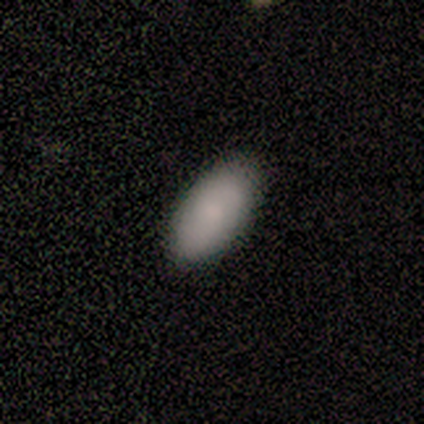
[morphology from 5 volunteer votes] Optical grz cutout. It shows a smooth galaxy with no disk features (80%) that is in between round and cigar-shaped (100%). Merging: none (100%).